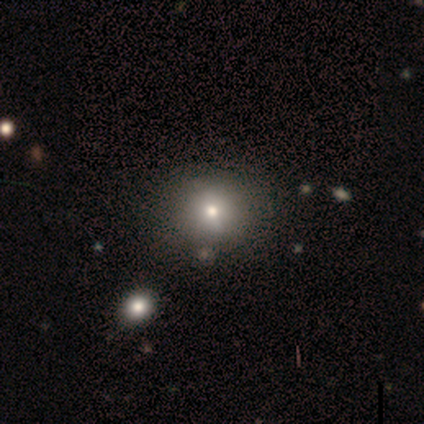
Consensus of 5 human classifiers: A smooth galaxy with no disk features (60%) that is round (100%).

Vote fractions:
- Smooth or featured? smooth: 60% / featured or disk: 40% / star or artifact: 0%
- How rounded? round: 100% / in between: 0% / cigar-shaped: 0%
- Merging? none: 80% / merger: 20% / minor disturbance: 0% / major disturbance: 0%